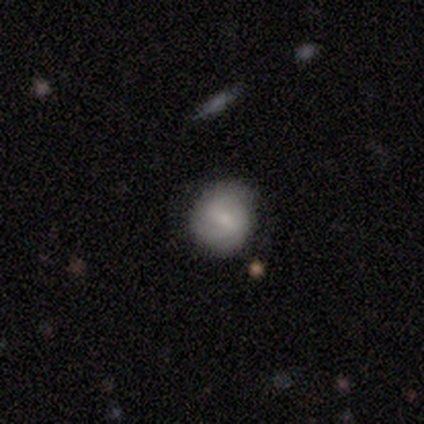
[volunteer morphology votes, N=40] Smooth or featured: featured or disk — 62% (smooth — 30%)
Edge-on disk: no — 92% (yes — 8%)
Bar: weak — 52% (no — 26%)
Spiral arms: yes — 91% (no — 9%)
Spiral winding: tight — 57% (medium — 38%)
Spiral arm count: 2 — 43% (tied with can't tell — 43%)
Bulge size: small — 70% (moderate — 26%)
Merging: none — 70% (minor disturbance — 30%)